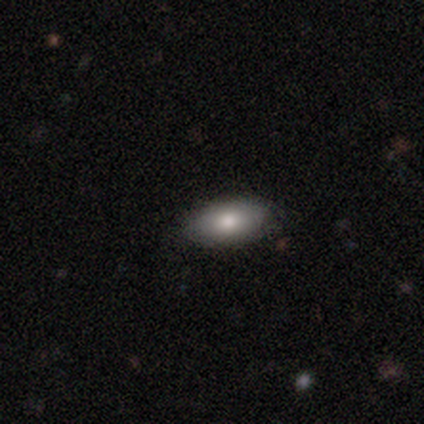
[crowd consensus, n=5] Volunteers were most divided on "merging": none: 60%, minor disturbance: 40%, major disturbance: 0%, merger: 0%. More confident: how rounded — in between (100%); smooth or featured — smooth (80%).